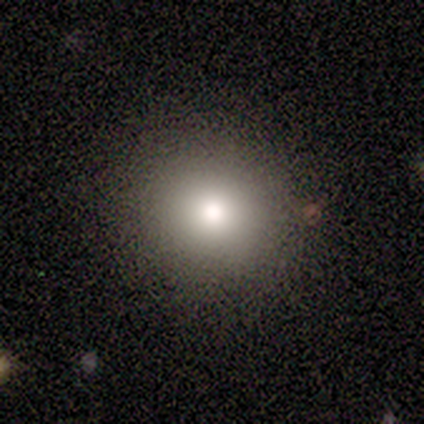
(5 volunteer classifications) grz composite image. It shows a smooth galaxy with no disk features (80%) that is round (100%). Merging: none (100%).